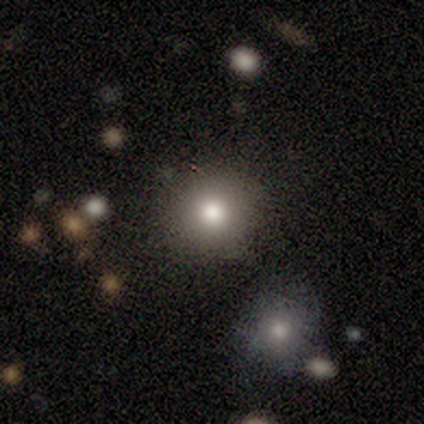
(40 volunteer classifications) Morphology: type=smooth (62%); roundness=round (80%); merging=none (78%).